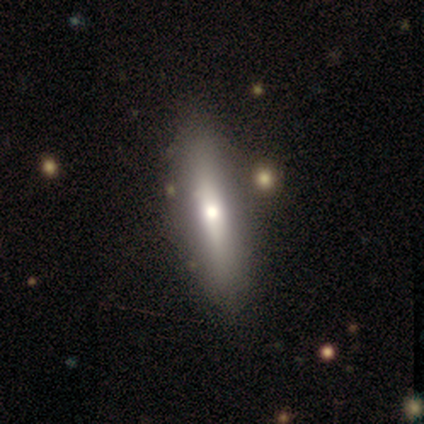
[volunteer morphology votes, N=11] This is possibly a smooth galaxy (55%). How rounded: possibly in between (50%, tied with cigar-shaped). Merging: clearly none (100%).